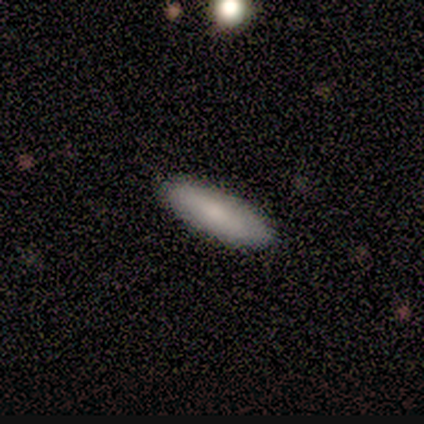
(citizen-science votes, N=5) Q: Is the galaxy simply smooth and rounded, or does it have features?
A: smooth — 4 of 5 (80%).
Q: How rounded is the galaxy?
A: in between — 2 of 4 (50%, tied with cigar-shaped).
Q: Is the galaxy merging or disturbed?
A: none — 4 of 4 (100%).